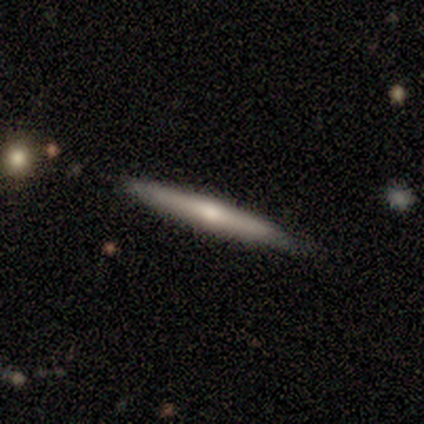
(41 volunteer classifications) featured or disk 54%, smooth 44%, star or artifact 2%. Down the decision tree: edge-on disk — yes (100%); edge-on bulge — rounded (55%); merging — none (85%).